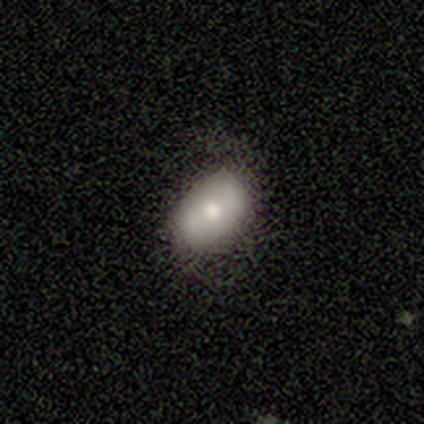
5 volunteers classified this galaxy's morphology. smooth_or_featured: smooth (p=0.80) [alt: featured or disk p=0.20]
how_rounded: in between (p=0.75) [alt: round p=0.25]
merging: none (p=0.80) [alt: minor disturbance p=0.20]